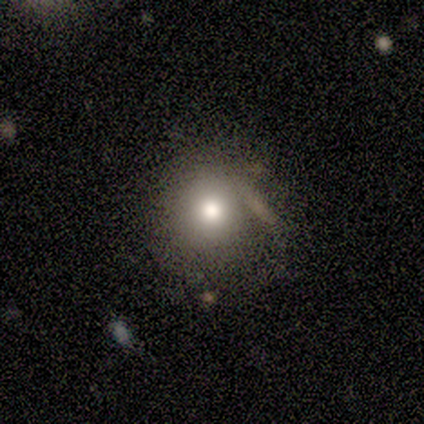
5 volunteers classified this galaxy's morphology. Smooth or featured? 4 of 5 (80%) said smooth. How rounded? 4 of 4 (100%) said round. Merging? 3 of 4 (75%) said none.